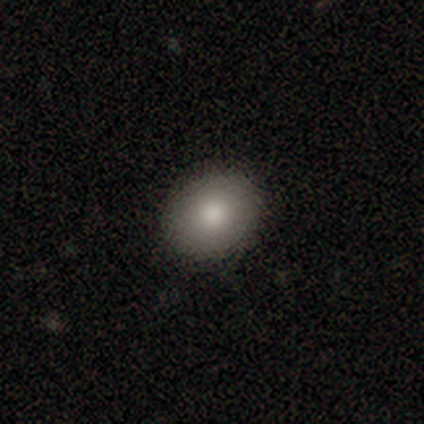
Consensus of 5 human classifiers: smooth 60%, featured or disk 40%, star or artifact 0%. Down the decision tree: how rounded — round (67%); merging — none (100%).